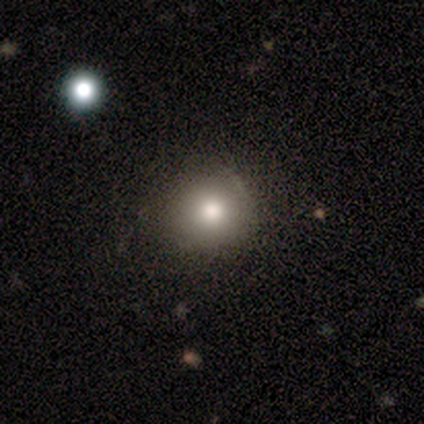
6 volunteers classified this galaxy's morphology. smooth-or-featured: smooth: 83% | star or artifact: 17% | featured or disk: 0%
  how-rounded: round: 100% | in between: 0% | cigar-shaped: 0%
  merging: none: 100% | minor disturbance: 0% | major disturbance: 0% | merger: 0%